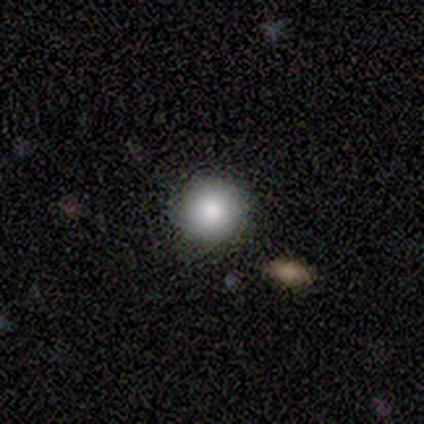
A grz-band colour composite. It shows a smooth galaxy with no disk features (100%) that is round (100%). Merging: none (50%, tied with minor disturbance).